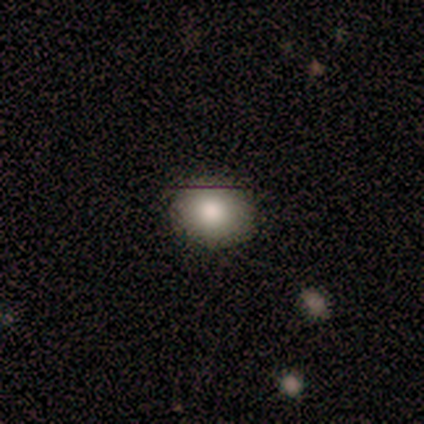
Volunteers were most divided on "how rounded" (2-way tie): round: 50%, in between: 50%, cigar-shaped: 0%. More confident: merging — none (100%); smooth or featured — smooth (80%).